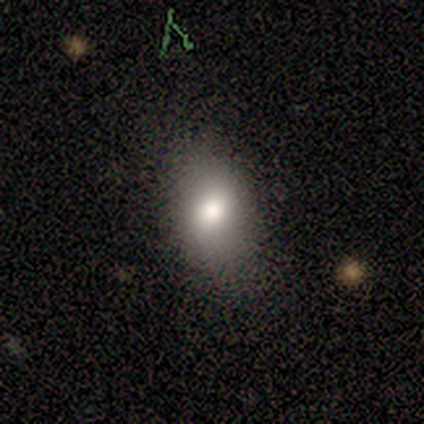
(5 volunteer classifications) A smooth galaxy with no disk features (100%) that is in between round and cigar-shaped (80%).

Vote fractions:
- Smooth or featured? smooth: 100% / featured or disk: 0% / star or artifact: 0%
- How rounded? in between: 80% / cigar-shaped: 20% / round: 0%
- Merging? none: 80% / minor disturbance: 20% / major disturbance: 0% / merger: 0%